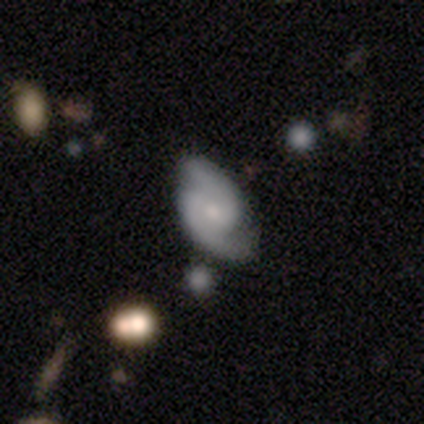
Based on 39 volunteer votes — A featured or disk galaxy (87%) with no bar (65%), 2 (100%) medium (58%) spiral arms (97%) and a small central bulge (62%). Merging: none (68%).